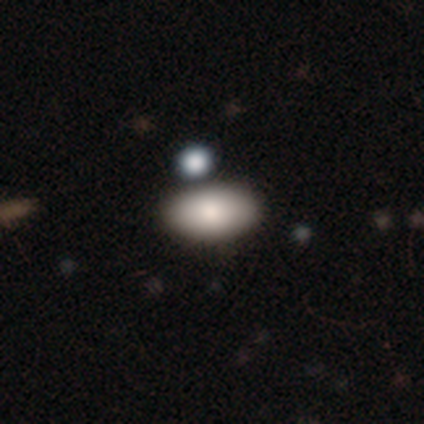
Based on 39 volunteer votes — Q: Smooth or featured?
A: smooth (92%); runner-up: featured or disk (5%)
Q: How rounded?
A: in between (94%); runner-up: round (3%)
Q: Merging?
A: none (68%); runner-up: minor disturbance (21%)